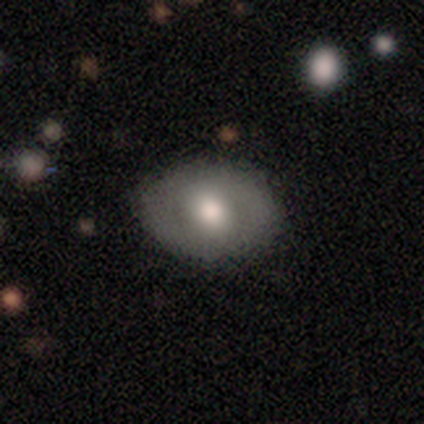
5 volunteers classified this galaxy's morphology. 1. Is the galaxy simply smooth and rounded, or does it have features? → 60% featured or disk, 40% smooth, 0% star or artifact.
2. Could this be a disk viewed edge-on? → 67% no, 33% yes.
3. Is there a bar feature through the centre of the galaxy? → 50% weak (tied), 50% no (tied), 0% strong.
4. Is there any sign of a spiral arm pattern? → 50% yes (tied), 50% no (tied).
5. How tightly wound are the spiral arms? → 100% medium, 0% tight, 0% loose.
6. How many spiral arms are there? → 100% 2, 0% 1, 0% 3, 0% 4, 0% more than 4, 0% can't tell.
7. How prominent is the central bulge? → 50% large (tied), 50% moderate (tied), 0% dominant, 0% small, 0% none.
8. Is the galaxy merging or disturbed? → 80% none, 20% minor disturbance, 0% major disturbance, 0% merger.